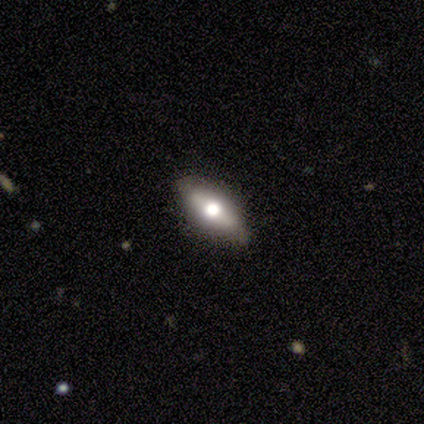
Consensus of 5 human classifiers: Smooth or featured? 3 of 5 (60%) said smooth. How rounded? 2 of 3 (67%) said in between. Merging? 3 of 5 (60%) said none.